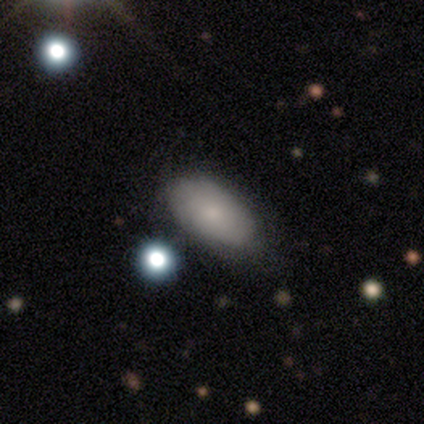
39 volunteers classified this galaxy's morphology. type=smooth (77%); roundness=in between (93%); merging=none (66%).